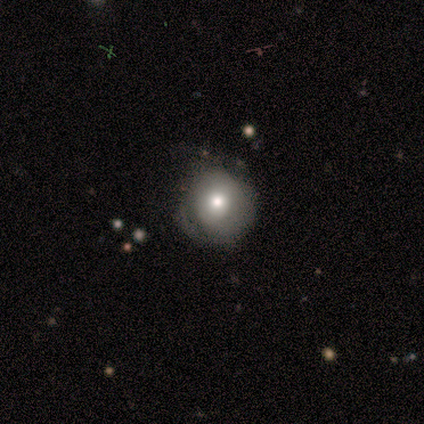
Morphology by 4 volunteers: smooth_or_featured: smooth (p=1.00)
how_rounded: round (p=1.00)
merging: none (p=0.75) [alt: minor disturbance p=0.25]